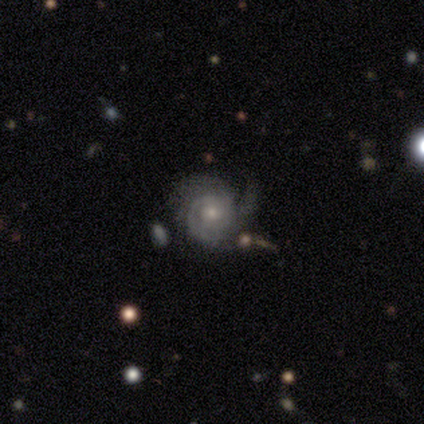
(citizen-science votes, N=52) smooth-or-featured: featured or disk: 87% | smooth: 12% | star or artifact: 2%
  disk-edge-on: no: 100% | yes: 0%
    bar: no: 98% | strong: 2% | weak: 0%
    has-spiral-arms: yes: 100% | no: 0%
      spiral-winding: tight: 76% | medium: 20% | loose: 4%
      spiral-arm-count: 2: 33% | can't tell: 31% | 3: 22% | 1: 9% | 4: 4% | more than 4: 0%
    bulge-size: small: 51% | moderate: 40% | large: 7% | dominant: 2% | none: 0%
  merging: none: 39% | minor disturbance: 37% | major disturbance: 16% | merger: 8%